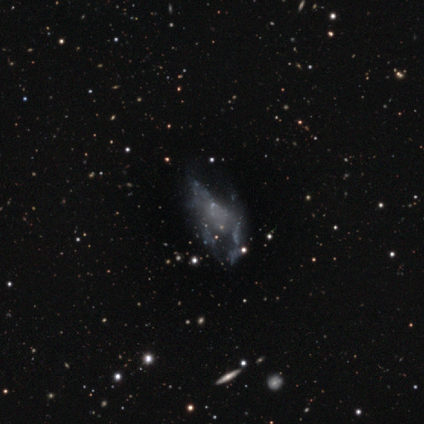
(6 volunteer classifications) Morphology: type=star or artifact (67%).